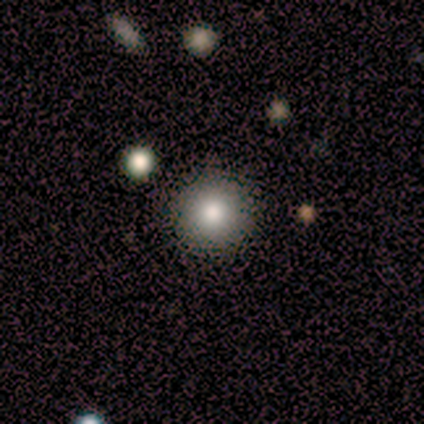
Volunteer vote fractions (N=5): Smooth or featured: smooth — 100%
How rounded: round — 80% (in between — 20%)
Merging: none — 80% (minor disturbance — 20%)